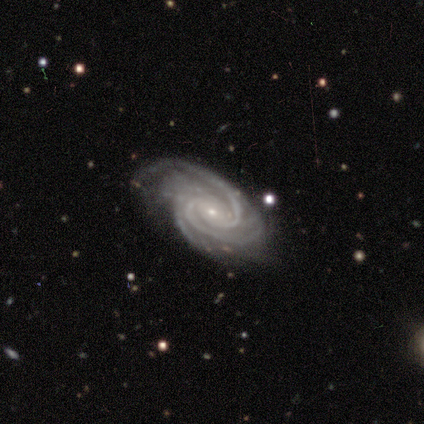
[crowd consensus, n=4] Q: Smooth or featured?
A: featured or disk (100%)
Q: Edge-on disk?
A: no (100%)
Q: Bar?
A: no (100%)
Q: Spiral arms?
A: yes (100%)
Q: Spiral winding?
A: tight (100%)
Q: Spiral arm count?
A: 3 (50%); runner-up: more than 4 (25%)
Q: Bulge size?
A: small (100%)
Q: Merging?
A: none (75%); runner-up: major disturbance (25%)